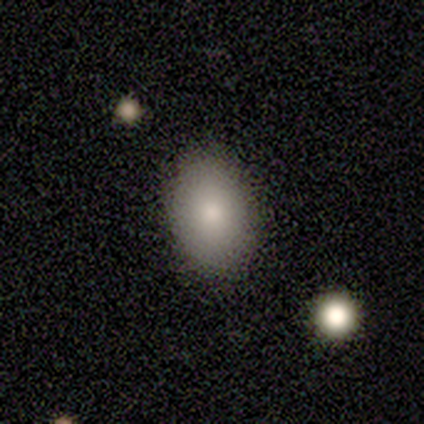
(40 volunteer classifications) Q: Smooth or featured?
A: smooth (80%); runner-up: featured or disk (12%)
Q: How rounded?
A: in between (69%); runner-up: round (31%)
Q: Merging?
A: none (78%); runner-up: minor disturbance (16%)